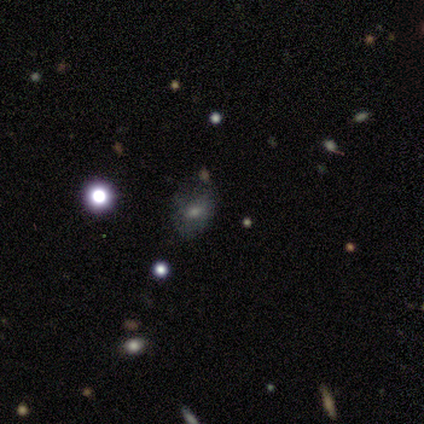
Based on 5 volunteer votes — Overall: smooth (60%; featured or disk 20%). How rounded: in between (67%; round 33%). Merging: none (100%).